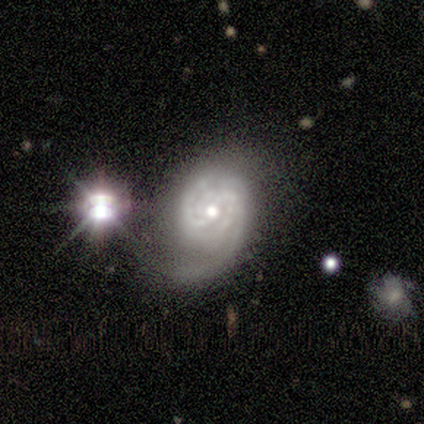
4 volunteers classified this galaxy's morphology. Smooth or featured?
  - featured or disk: 100% *
  - smooth: 0%
  - star or artifact: 0%
Edge-on disk?
  - no: 100% *
  - yes: 0%
Bar?
  - weak: 75% *
  - strong: 25%
  - no: 0%
Spiral arms?
  - yes: 75% *
  - no: 25%
Spiral winding?
  - tight: 67% *
  - medium: 33%
  - loose: 0%
Spiral arm count?
  - 4: 67% *
  - 2: 33%
  - 1: 0%
  - 3: 0%
  - more than 4: 0%
  - can't tell: 0%
Bulge size?
  - moderate: 75% *
  - small: 25%
  - dominant: 0%
  - large: 0%
  - none: 0%
Merging?
  - none: 50% *
  - major disturbance: 25%
  - merger: 25%
  - minor disturbance: 0%